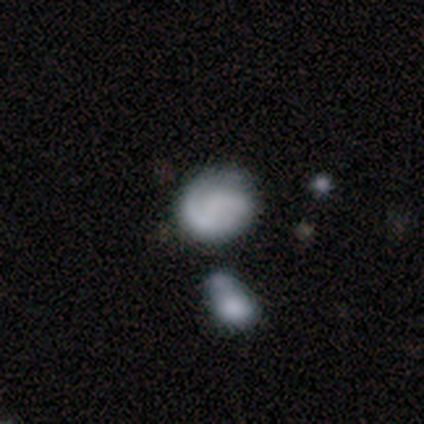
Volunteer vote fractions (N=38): A featured or disk galaxy (53%) with no bar (79%), 1 (50%) tight (50%) spiral arms (84%) and no central bulge (84%). Merging: none (46%).